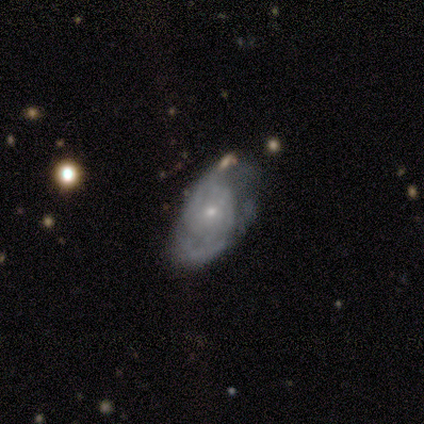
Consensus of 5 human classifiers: Overall: featured or disk (60%; smooth 40%). Edge-on disk: no (100%). Bar: no (67%; weak 33%). Spiral arms: yes (100%). Spiral arm count: 2 (67%; 1 33%). Spiral winding: tight (67%; loose 33%). Bulge size: small (100%). Merging: none (40%, tied with minor disturbance).